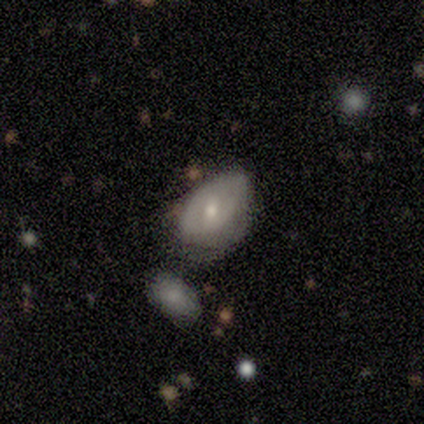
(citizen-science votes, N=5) A smooth galaxy with no disk features (80%) that is in between round and cigar-shaped (100%).

Vote fractions:
- Smooth or featured? smooth: 80% / featured or disk: 20% / star or artifact: 0%
- How rounded? in between: 100% / round: 0% / cigar-shaped: 0%
- Merging? none: 60% / minor disturbance: 40% / major disturbance: 0% / merger: 0%